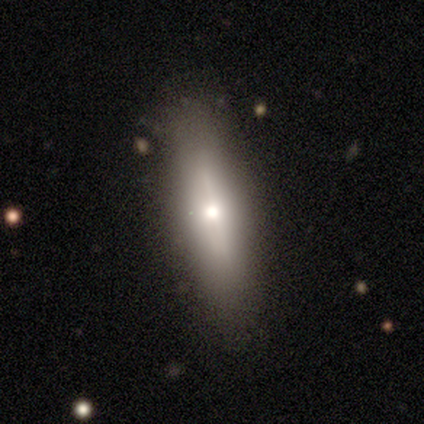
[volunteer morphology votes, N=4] Volunteers were most divided on "smooth or featured" (2-way tie): smooth: 50%, featured or disk: 50%, star or artifact: 0%; "how rounded" (2-way tie): round: 50%, cigar-shaped: 50%, in between: 0%. More confident: merging — none (100%).